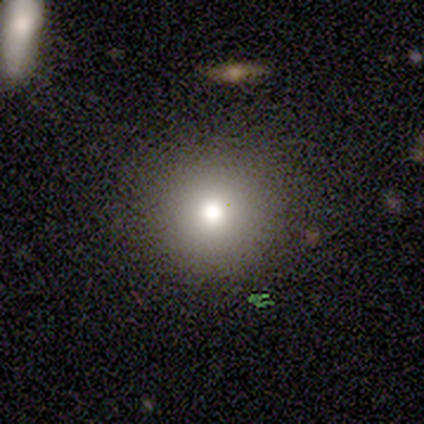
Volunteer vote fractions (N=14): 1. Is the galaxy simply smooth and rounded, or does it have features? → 71% smooth, 14% featured or disk, 14% star or artifact.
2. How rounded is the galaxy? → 100% round, 0% in between, 0% cigar-shaped.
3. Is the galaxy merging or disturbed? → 100% none, 0% minor disturbance, 0% major disturbance, 0% merger.